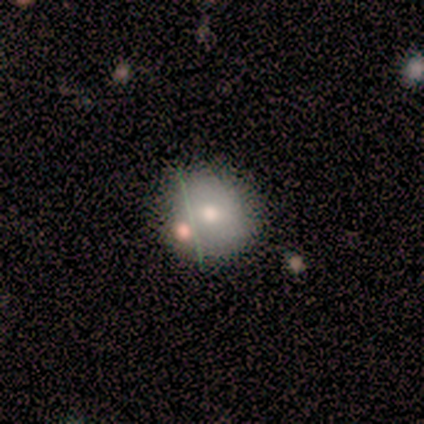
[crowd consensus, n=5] A smooth galaxy with no disk features (80%) that is round (100%). Merging: none (60%).